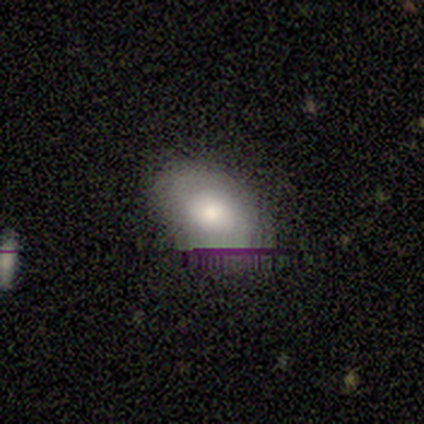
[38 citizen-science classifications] This appears to be a smooth galaxy with no disk features (58%) that is in between round and cigar-shaped (82%). Merging: none (88%).